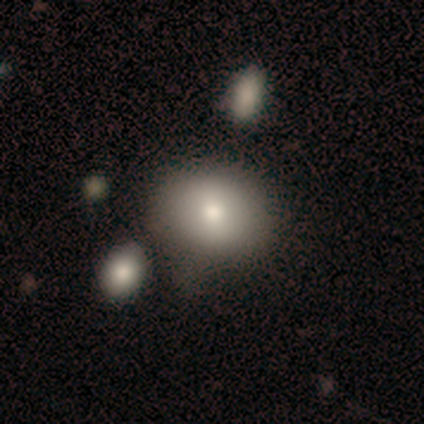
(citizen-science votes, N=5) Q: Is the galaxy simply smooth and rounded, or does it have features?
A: smooth — 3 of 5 (60%).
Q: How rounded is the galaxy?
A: in between — 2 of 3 (67%).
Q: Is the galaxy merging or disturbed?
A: merger — 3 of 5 (60%).